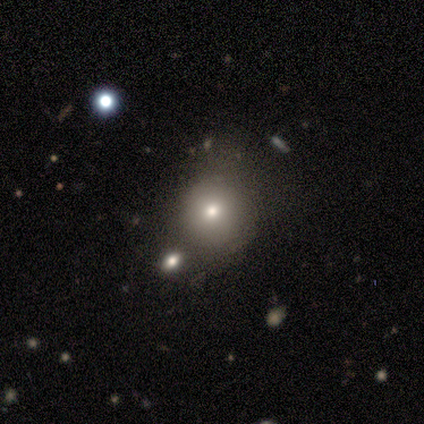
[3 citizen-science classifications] A smooth galaxy with no disk features (100%) that is in between round and cigar-shaped (67%).

Vote fractions:
- Smooth or featured? smooth: 100% / featured or disk: 0% / star or artifact: 0%
- How rounded? in between: 67% / round: 33% / cigar-shaped: 0%
- Merging? minor disturbance: 67% / merger: 33% / none: 0% / major disturbance: 0%